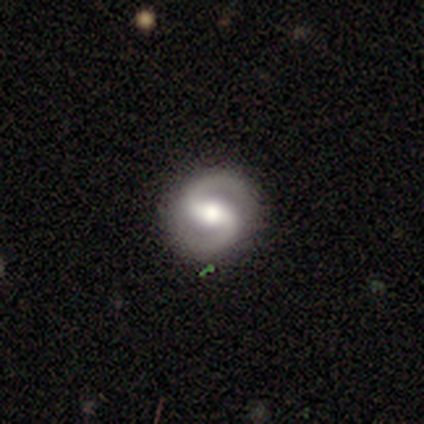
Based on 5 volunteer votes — Overall: featured or disk (100%). Edge-on disk: no (100%). Bar: strong (40%, tied with weak). Spiral arms: yes (100%). Spiral arm count: 2 (100%). Spiral winding: medium (40%, tied with loose). Bulge size: moderate (60%; large 40%). Merging: none (100%).